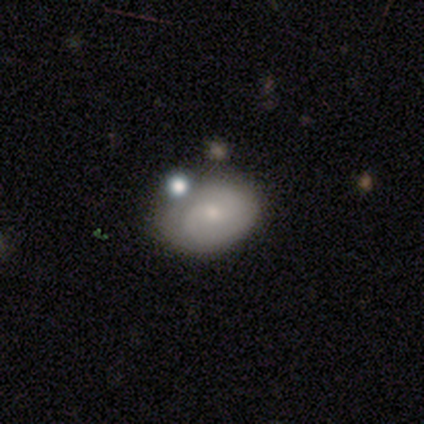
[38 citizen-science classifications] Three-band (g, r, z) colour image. It shows a smooth galaxy with no disk features (47%, tied with featured or disk) that is in between round and cigar-shaped (78%). Merging: none (69%).